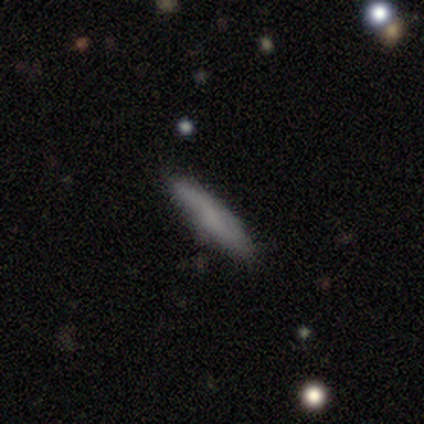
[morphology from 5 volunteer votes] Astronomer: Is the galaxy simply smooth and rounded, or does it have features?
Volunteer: smooth — 80%.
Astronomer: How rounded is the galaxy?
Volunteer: cigar-shaped — 100%.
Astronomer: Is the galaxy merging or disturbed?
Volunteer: none — 100%.